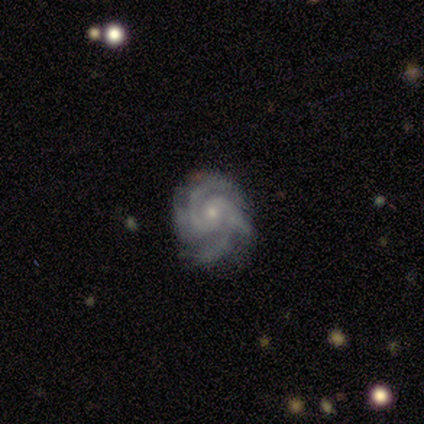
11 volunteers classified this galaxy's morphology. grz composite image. It shows a featured or disk galaxy (91%) with no bar (80%), 3 (50%) tight (70%) spiral arms (100%) and a small central bulge (70%). Merging: none (73%).